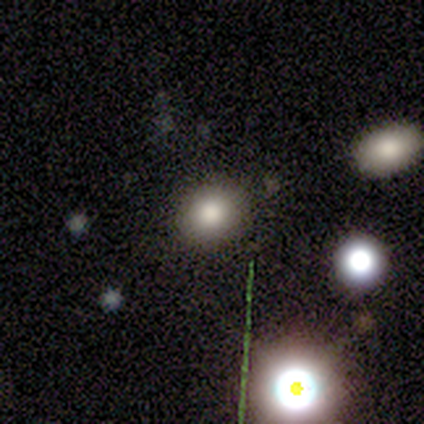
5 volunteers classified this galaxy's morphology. A smooth galaxy with no disk features (100%) that is round (100%).

Vote fractions:
- Smooth or featured? smooth: 100% / featured or disk: 0% / star or artifact: 0%
- How rounded? round: 100% / in between: 0% / cigar-shaped: 0%
- Merging? none: 100% / minor disturbance: 0% / major disturbance: 0% / merger: 0%